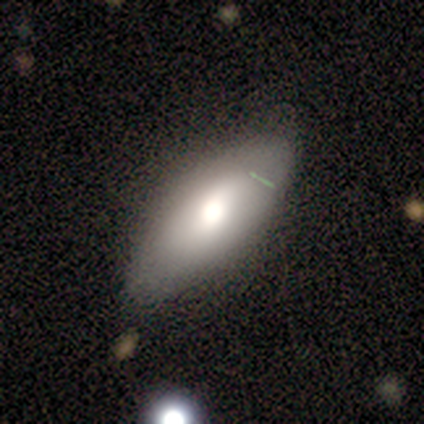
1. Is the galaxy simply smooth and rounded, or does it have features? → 60% smooth, 40% featured or disk, 0% star or artifact.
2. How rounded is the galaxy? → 100% in between, 0% round, 0% cigar-shaped.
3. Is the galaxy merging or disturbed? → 100% none, 0% minor disturbance, 0% major disturbance, 0% merger.